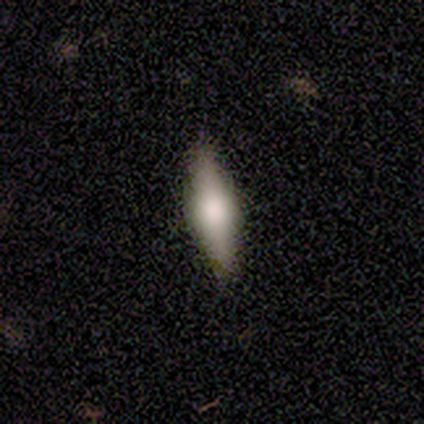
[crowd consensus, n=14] Q: Smooth or featured?
A: smooth (57%); runner-up: featured or disk (36%)
Q: How rounded?
A: in between (50%); tied with: cigar-shaped (50%)
Q: Merging?
A: none (92%); runner-up: minor disturbance (8%)